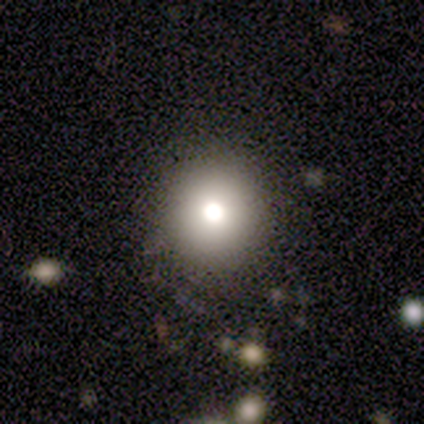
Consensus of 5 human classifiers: Morphology: type=smooth (80%); roundness=round (100%); merging=none (100%).